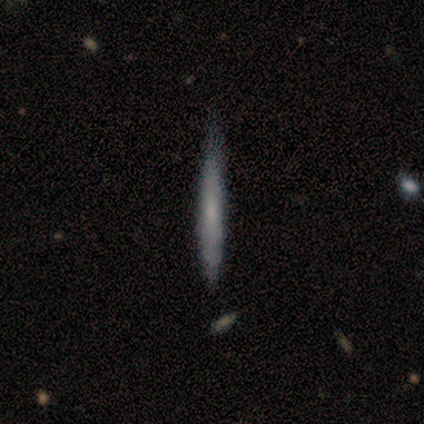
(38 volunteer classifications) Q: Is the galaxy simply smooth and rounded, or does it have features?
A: smooth — 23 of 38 (61%).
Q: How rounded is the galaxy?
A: cigar-shaped — 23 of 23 (100%).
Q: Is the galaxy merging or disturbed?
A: none — 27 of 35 (77%).